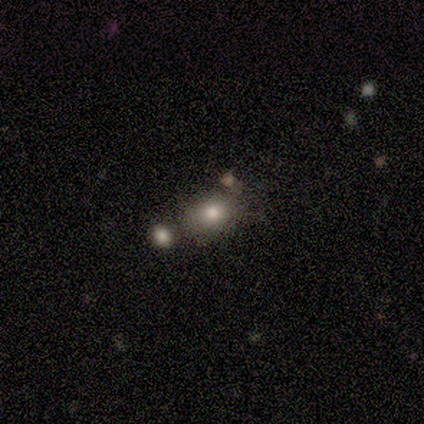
smooth_or_featured: smooth (p=1.00)
how_rounded: in between (p=0.60) [alt: round p=0.40]
merging: minor disturbance (p=0.40) [tied with: merger p=0.40]